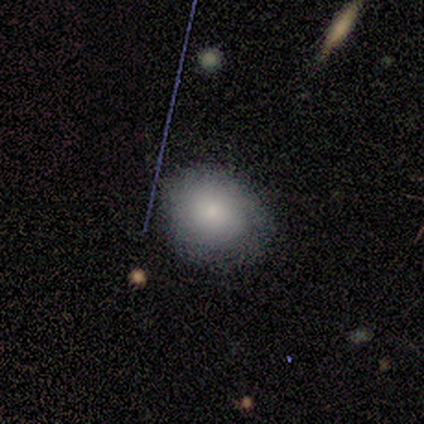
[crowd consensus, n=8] A smooth galaxy with no disk features (62%) that is round (60%).

Vote fractions:
- Smooth or featured? smooth: 62% / featured or disk: 25% / star or artifact: 12%
- How rounded? round: 60% / in between: 40% / cigar-shaped: 0%
- Merging? none: 86% / minor disturbance: 14% / major disturbance: 0% / merger: 0%